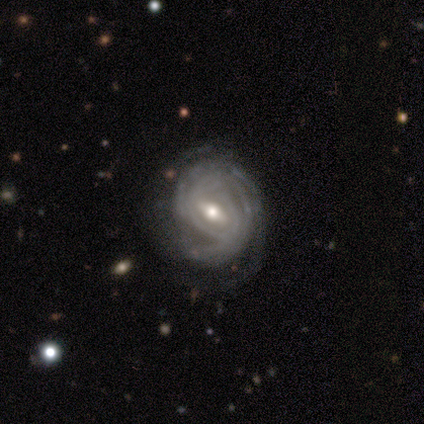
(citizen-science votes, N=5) This is clearly a featured or disk galaxy (80%). It is likely not viewed edge-on (75%). Bar: likely strong (67%). Spiral arm pattern: clearly yes (100%). Spiral arm count: clearly can't tell (100%). Spiral winding: likely tight (67%). Central bulge: clearly moderate (100%). Merging: marginally none (40%, tied with minor disturbance).